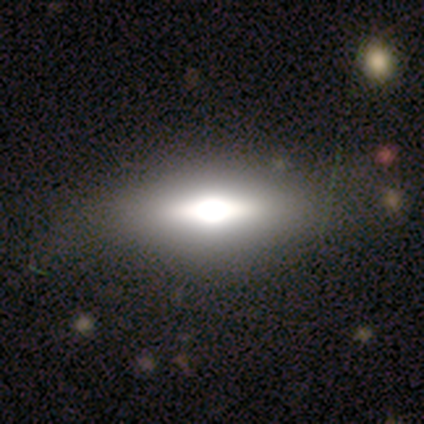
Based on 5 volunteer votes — smooth_or_featured: featured or disk (p=0.60) [alt: smooth p=0.40]
disk_edge_on: no (p=0.67) [alt: yes p=0.33]
bar: strong (p=0.50) [tied with: no p=0.50]
has_spiral_arms: no (p=1.00)
bulge_size: dominant (p=0.50) [tied with: large p=0.50]
merging: none (p=0.60) [alt: minor disturbance p=0.40]